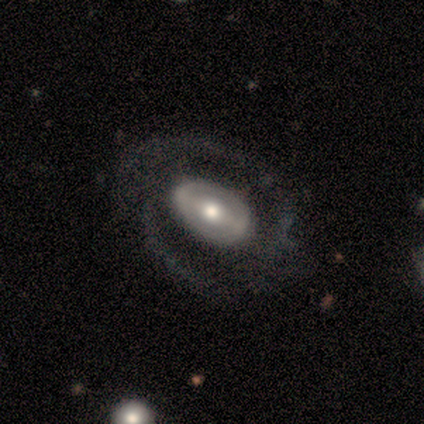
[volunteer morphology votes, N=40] type=featured or disk (68%); edge-on=no (96%); bar=strong (58%); spiral arms=yes (50%, tied with no); winding=loose (46%); arm count=2 (69%); bulge=moderate (65%); merging=none (76%).